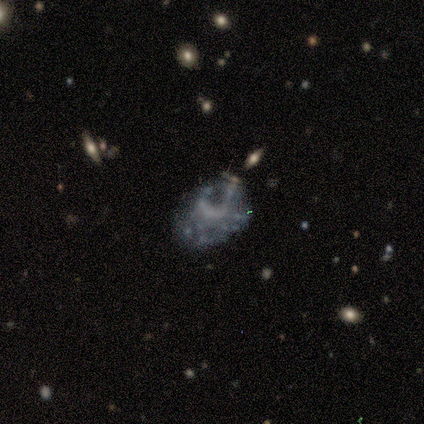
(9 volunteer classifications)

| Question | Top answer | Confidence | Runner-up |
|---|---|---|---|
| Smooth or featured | featured or disk | 56% | smooth (22%) |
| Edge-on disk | no | 100% | — |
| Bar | no | 80% | weak (20%) |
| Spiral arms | no | 100% | — |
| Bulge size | none | 80% | small (20%) |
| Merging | none | 57% | minor disturbance (14%) |